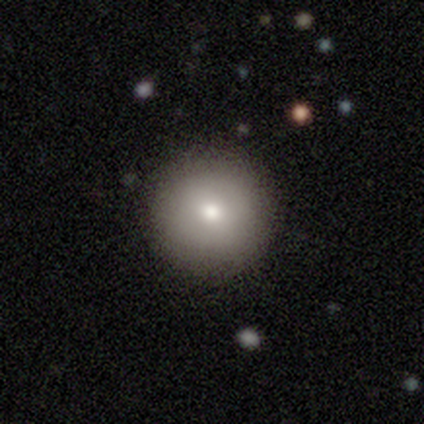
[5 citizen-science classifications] This appears to be a smooth galaxy with no disk features (100%) that is round (100%). Merging: none (100%).